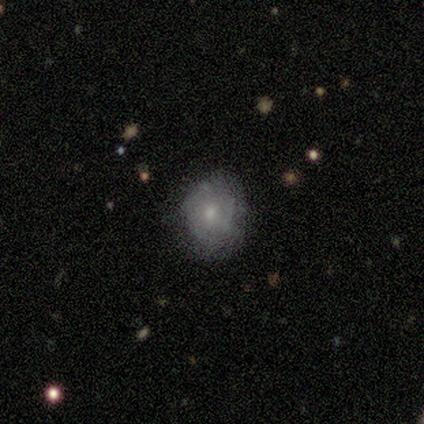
smooth 60%, featured or disk 40%, star or artifact 0%. Down the decision tree: how rounded — round (100%); merging — none (100%).